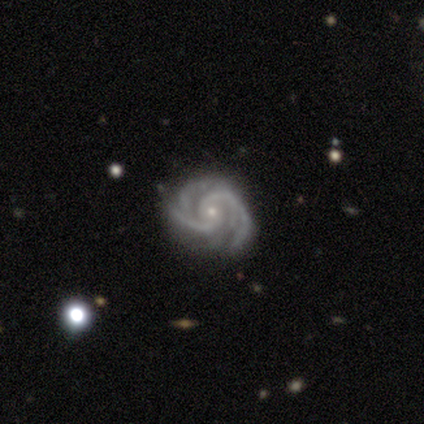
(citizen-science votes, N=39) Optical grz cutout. It shows a featured or disk galaxy (97%) with no bar (63%), 2 (39%) tight (55%) spiral arms (100%) and a small central bulge (89%). Merging: none (74%).